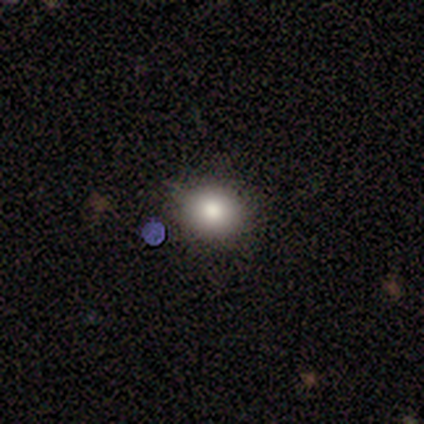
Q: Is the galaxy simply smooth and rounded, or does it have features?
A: smooth — 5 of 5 (100%).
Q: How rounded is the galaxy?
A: round — 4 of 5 (80%).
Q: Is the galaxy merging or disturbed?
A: none — 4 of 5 (80%).